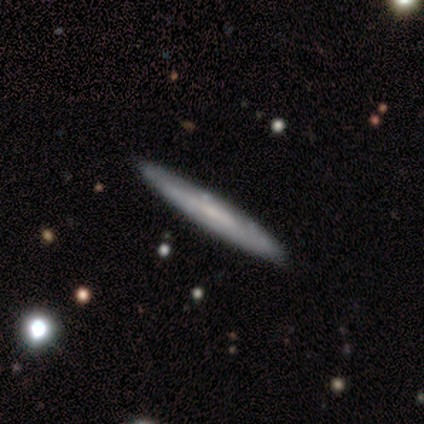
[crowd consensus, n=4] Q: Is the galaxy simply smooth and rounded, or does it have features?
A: smooth — 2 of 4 (50%, tied with featured or disk).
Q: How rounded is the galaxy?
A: cigar-shaped — 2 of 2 (100%).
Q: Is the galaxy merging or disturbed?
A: none — 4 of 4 (100%).